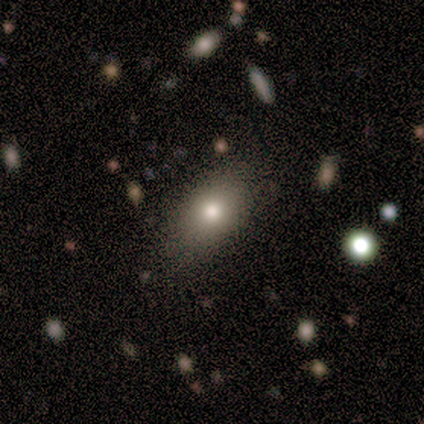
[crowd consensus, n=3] Morphology: type=smooth (67%); roundness=in between (100%); merging=none (100%).